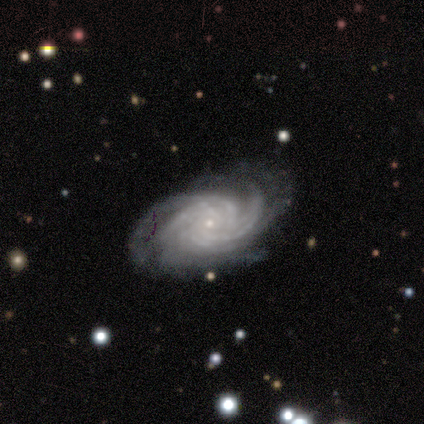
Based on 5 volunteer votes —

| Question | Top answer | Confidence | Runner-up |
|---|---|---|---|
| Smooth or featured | featured or disk | 100% | — |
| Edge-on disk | no | 100% | — |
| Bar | no | 100% | — |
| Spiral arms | yes | 100% | — |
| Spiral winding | tight | 100% | — |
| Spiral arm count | more than 4 | 60% | 3 (20%) |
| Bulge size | small | 100% | — |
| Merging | none | 60% | minor disturbance (20%) |